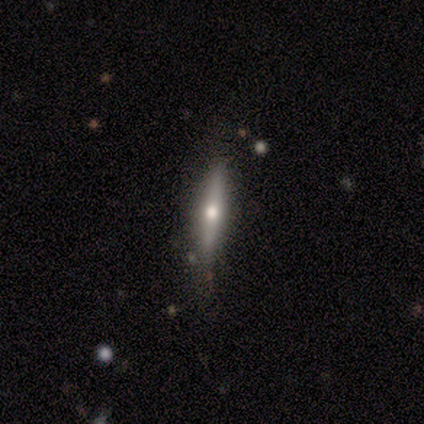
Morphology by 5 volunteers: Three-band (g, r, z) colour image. It shows a featured or disk galaxy (100%) viewed edge-on (80%) with a rounded central bulge (100%). Merging: none (80%).